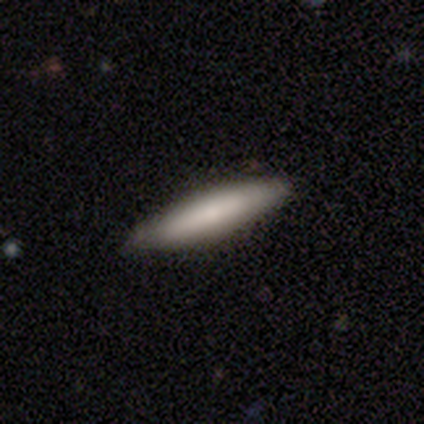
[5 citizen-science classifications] Smooth or featured?
  - smooth: 60% *
  - featured or disk: 40%
  - star or artifact: 0%
How rounded?
  - cigar-shaped: 100% *
  - round: 0%
  - in between: 0%
Merging?
  - none: 60% *
  - minor disturbance: 40%
  - major disturbance: 0%
  - merger: 0%